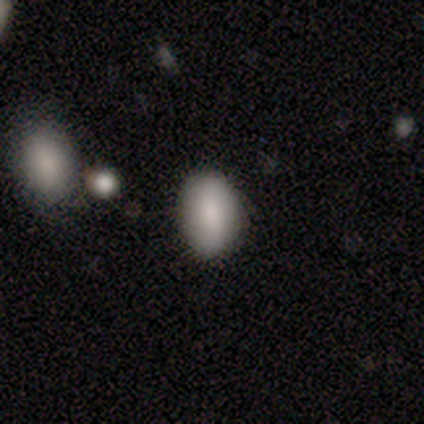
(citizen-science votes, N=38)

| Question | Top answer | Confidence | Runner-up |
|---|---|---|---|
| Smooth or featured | smooth | 79% | featured or disk (11%) |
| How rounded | in between | 90% | round (10%) |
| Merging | none | 79% | minor disturbance (12%) |